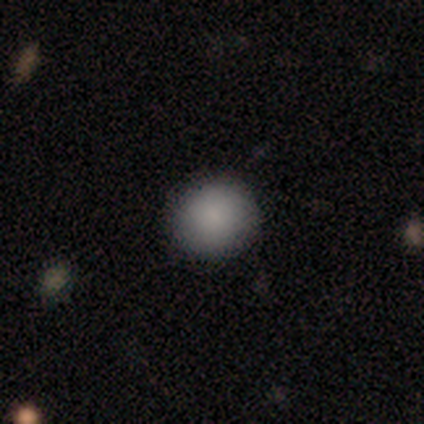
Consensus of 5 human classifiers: Smooth or featured? smooth (100%)
How rounded? round (80%)
Merging? none (80%)